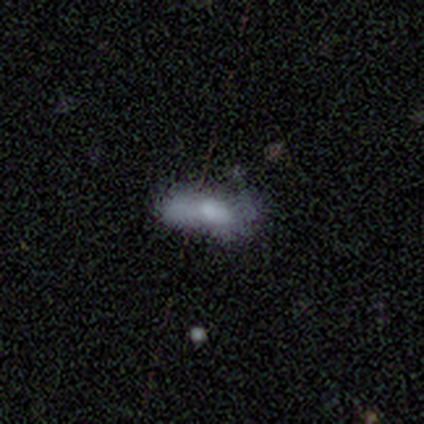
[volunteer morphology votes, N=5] type=smooth (60%); roundness=cigar-shaped (67%); merging=minor disturbance (50%).